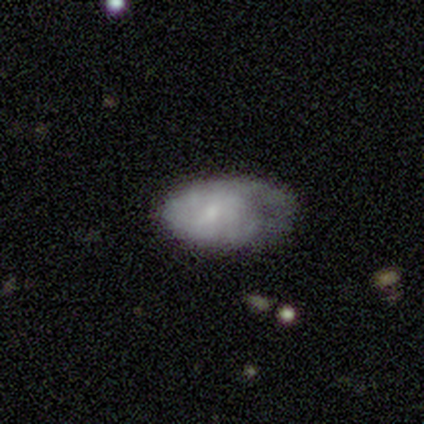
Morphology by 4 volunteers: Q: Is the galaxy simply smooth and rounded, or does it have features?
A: featured or disk — 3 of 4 (75%).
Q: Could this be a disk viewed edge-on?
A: no — 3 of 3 (100%).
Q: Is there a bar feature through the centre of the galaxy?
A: no — 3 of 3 (100%).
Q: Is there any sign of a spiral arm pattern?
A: yes — 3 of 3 (100%).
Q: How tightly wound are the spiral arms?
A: tight — 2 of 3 (67%).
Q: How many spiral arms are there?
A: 1 — 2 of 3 (67%).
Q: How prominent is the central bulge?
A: small — 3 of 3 (100%).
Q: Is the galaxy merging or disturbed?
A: none — 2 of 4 (50%).